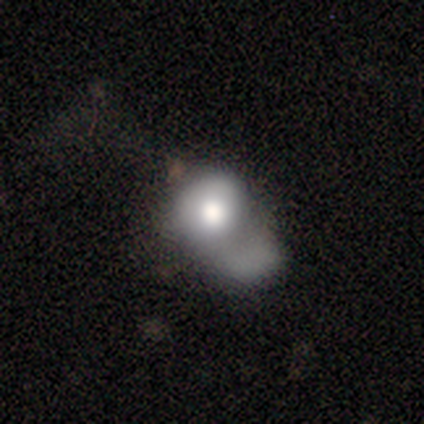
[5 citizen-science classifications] featured or disk 60%, smooth 20%, star or artifact 20%. Down the decision tree: edge-on disk — no (100%); bar — no (100%); spiral arms — no (100%); bulge size — large (67%); merging — major disturbance (50%).